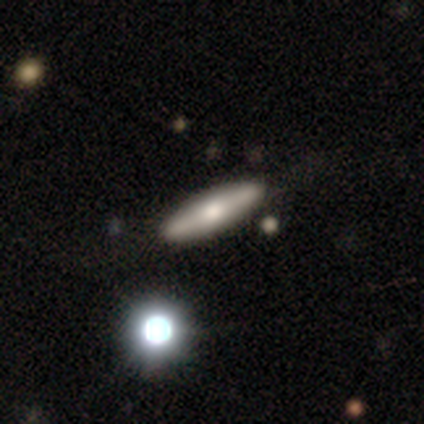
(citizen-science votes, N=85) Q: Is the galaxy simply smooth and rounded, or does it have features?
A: smooth — 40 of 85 (47%).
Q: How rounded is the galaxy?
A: cigar-shaped — 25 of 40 (62%).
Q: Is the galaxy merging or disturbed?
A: none — 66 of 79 (84%).